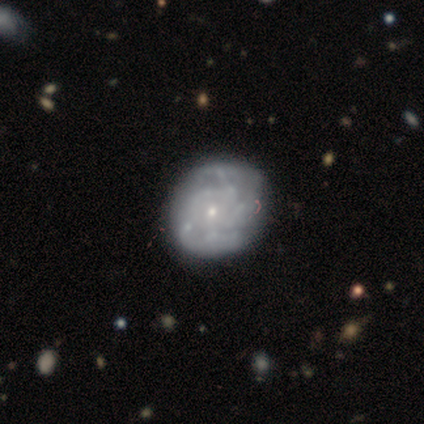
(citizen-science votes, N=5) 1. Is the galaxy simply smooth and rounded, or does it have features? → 60% featured or disk, 40% smooth, 0% star or artifact.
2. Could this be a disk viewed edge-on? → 100% no, 0% yes.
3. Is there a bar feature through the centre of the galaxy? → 100% no, 0% strong, 0% weak.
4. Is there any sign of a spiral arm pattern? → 67% yes, 33% no.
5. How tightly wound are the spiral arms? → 50% medium (tied), 50% loose (tied), 0% tight.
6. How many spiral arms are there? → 50% more than 4 (tied), 50% can't tell (tied), 0% 1, 0% 2, 0% 3, 0% 4.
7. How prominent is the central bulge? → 67% small, 33% moderate, 0% dominant, 0% large, 0% none.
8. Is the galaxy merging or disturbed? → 80% none, 20% major disturbance, 0% minor disturbance, 0% merger.